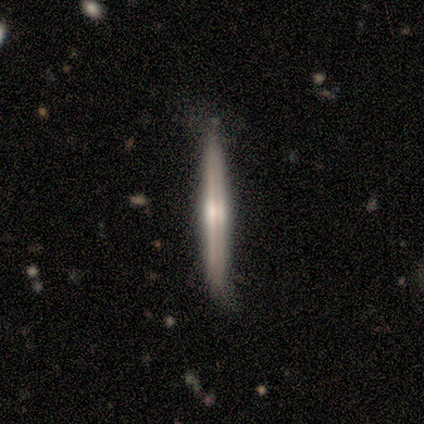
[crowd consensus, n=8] Smooth or featured? 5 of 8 (62%) said featured or disk. Edge-on disk? 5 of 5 (100%) said yes. Edge-on bulge? 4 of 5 (80%) said rounded. Merging? 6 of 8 (75%) said none.